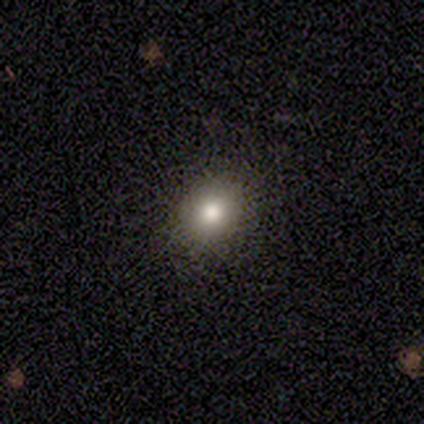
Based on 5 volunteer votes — Morphology: type=smooth (40%, tied with star or artifact); roundness=round (50%, tied with in between); merging=none (100%).